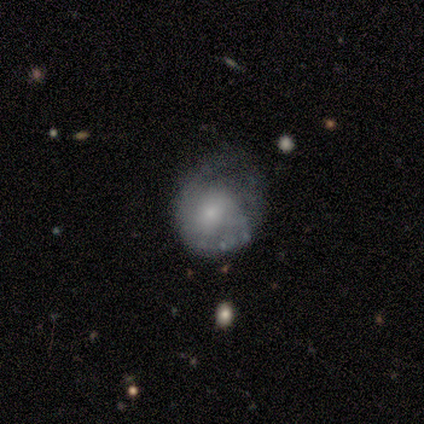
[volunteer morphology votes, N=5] Smooth or featured? smooth (80%)
How rounded? round (50%, tied with in between)
Merging? major disturbance (80%)